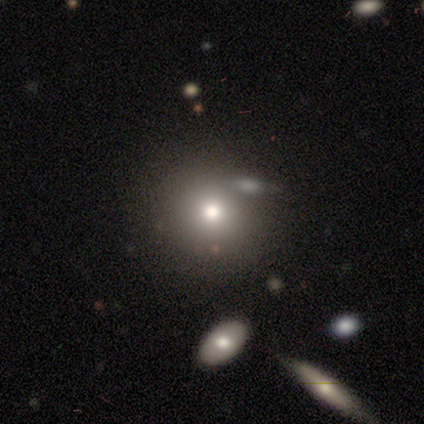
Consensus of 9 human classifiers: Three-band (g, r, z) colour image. It shows a smooth galaxy with no disk features (78%) that is round (71%). Merging: none (57%).